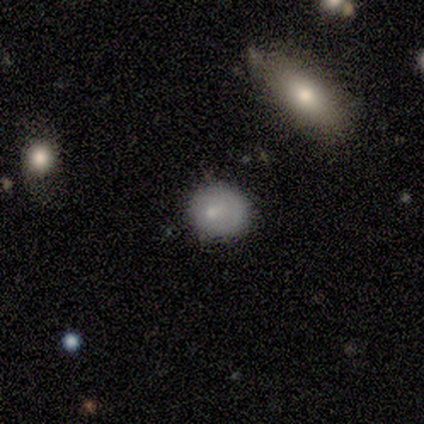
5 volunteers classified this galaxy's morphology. Overall: smooth (60%; featured or disk 20%). How rounded: in between (67%; round 33%). Merging: none (50%, tied with minor disturbance).